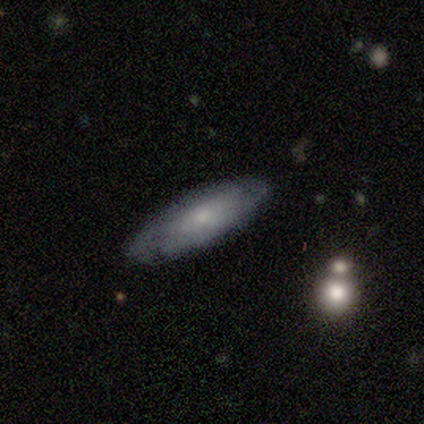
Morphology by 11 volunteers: This is possibly a smooth galaxy (55%). How rounded: likely cigar-shaped (67%). Merging: clearly none (82%).